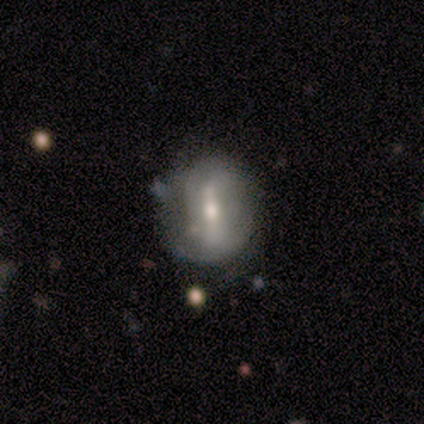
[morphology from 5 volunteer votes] Volunteers were most divided on "bar" (2-way tie): strong: 50%, weak: 50%, no: 0%; "spiral winding" (2-way tie): tight: 50%, medium: 50%, loose: 0%; "spiral arm count" (2-way tie): 2: 50%, can't tell: 50%, 1: 0%, 3: 0%, 4: 0%, more than 4: 0%. More confident: spiral arms — yes (100%); bulge size — small (100%); edge-on disk — no (67%); smooth or featured — featured or disk (60%); merging — none (60%).